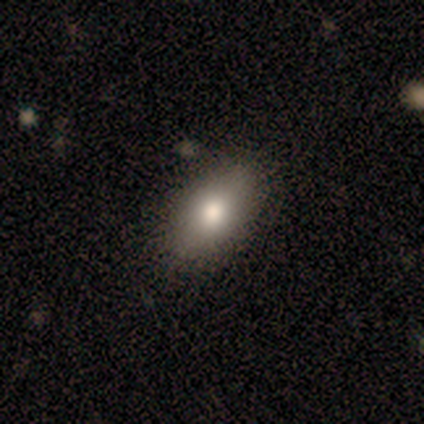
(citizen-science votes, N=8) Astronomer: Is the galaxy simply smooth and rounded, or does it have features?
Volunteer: smooth — 50%.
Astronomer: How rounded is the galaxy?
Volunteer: in between — 75%.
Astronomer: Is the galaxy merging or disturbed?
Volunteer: none — 67%.